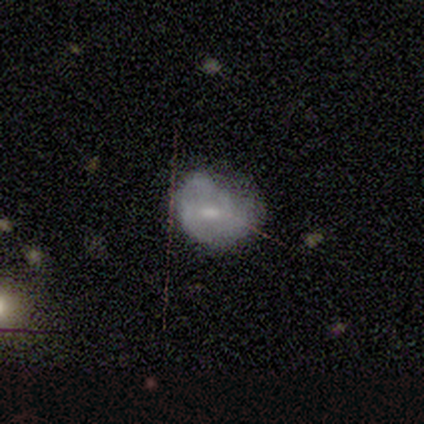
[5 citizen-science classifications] Smooth or featured? 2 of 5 (40%, tied with star or artifact) said smooth. How rounded? 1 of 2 (50%, tied with in between) said round. Merging? 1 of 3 (33%, tied with minor disturbance and major disturbance) said none.